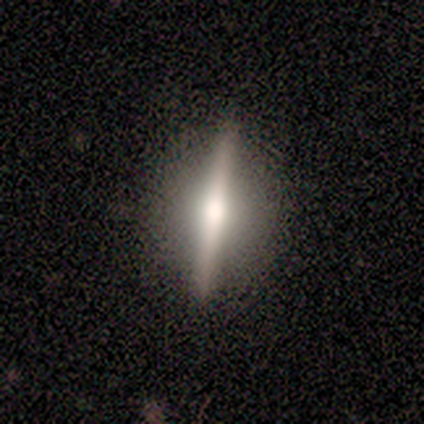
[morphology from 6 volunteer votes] Volunteers were most divided on "edge-on bulge" (2-way tie): none: 50%, rounded: 50%, boxy: 0%. More confident: edge-on disk — yes (100%); merging — none (100%); smooth or featured — featured or disk (67%).